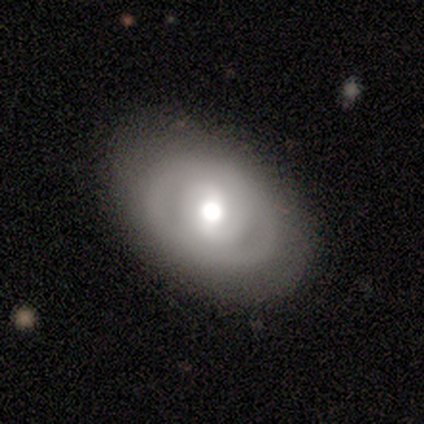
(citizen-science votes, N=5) smooth_or_featured: featured or disk (p=0.60) [alt: smooth p=0.20]
disk_edge_on: no (p=1.00)
bar: strong (p=0.33) [tied with: weak p=0.33, no p=0.33]
has_spiral_arms: yes (p=0.67) [alt: no p=0.33]
spiral_winding: medium (p=0.50) [tied with: loose p=0.50]
spiral_arm_count: 2 (p=1.00)
bulge_size: large (p=0.67) [alt: dominant p=0.33]
merging: none (p=0.50) [tied with: minor disturbance p=0.50]